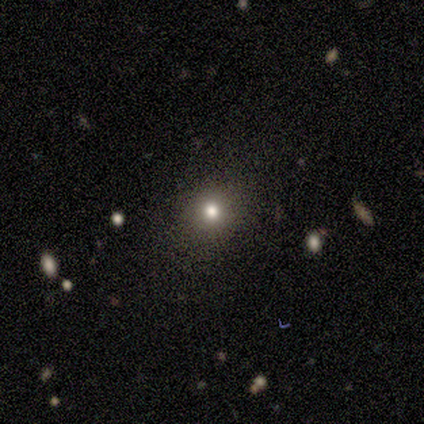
Overall: smooth (60%; star or artifact 40%). How rounded: round (67%; in between 33%). Merging: none (100%).